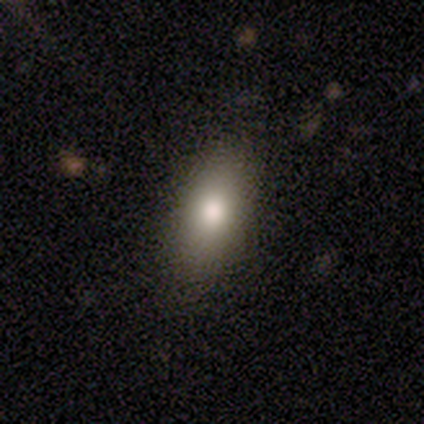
Smooth or featured: smooth — 78% (featured or disk — 14%)
How rounded: in between — 86% (cigar-shaped — 10%)
Merging: none — 85% (minor disturbance — 12%)